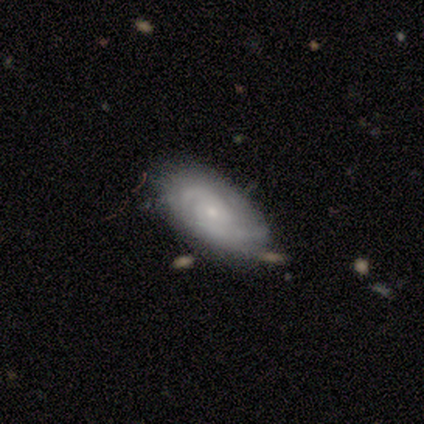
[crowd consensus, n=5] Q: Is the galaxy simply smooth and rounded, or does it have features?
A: featured or disk — 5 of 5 (100%).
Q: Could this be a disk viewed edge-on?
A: no — 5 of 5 (100%).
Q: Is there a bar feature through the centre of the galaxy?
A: weak — 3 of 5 (60%).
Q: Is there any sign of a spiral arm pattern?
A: yes — 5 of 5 (100%).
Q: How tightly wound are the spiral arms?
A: medium — 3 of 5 (60%).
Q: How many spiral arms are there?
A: can't tell — 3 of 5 (60%).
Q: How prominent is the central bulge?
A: small — 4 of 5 (80%).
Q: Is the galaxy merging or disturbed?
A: none — 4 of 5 (80%).